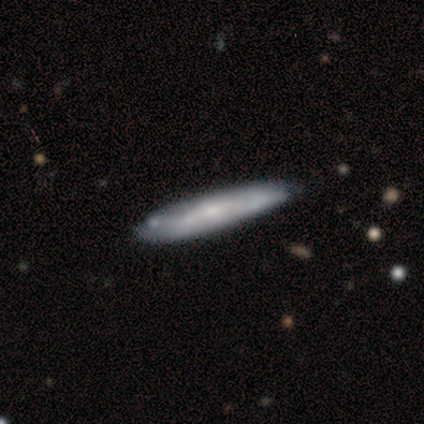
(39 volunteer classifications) Smooth or featured? smooth (54%)
How rounded? cigar-shaped (100%)
Merging? none (81%)